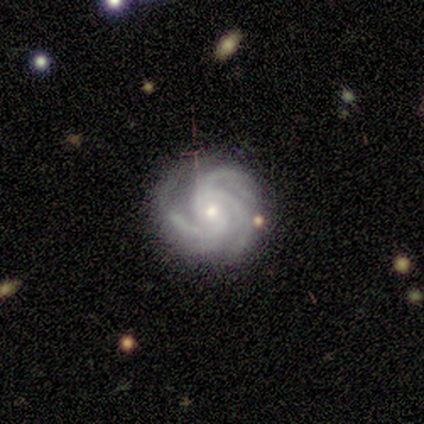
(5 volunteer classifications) Smooth or featured? 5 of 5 (100%) said featured or disk. Edge-on disk? 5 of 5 (100%) said no. Bar? 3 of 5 (60%) said weak. Spiral arms? 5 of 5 (100%) said yes. Spiral winding? 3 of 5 (60%) said medium. Spiral arm count? 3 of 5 (60%) said 3. Bulge size? 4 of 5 (80%) said small. Merging? 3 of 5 (60%) said none.